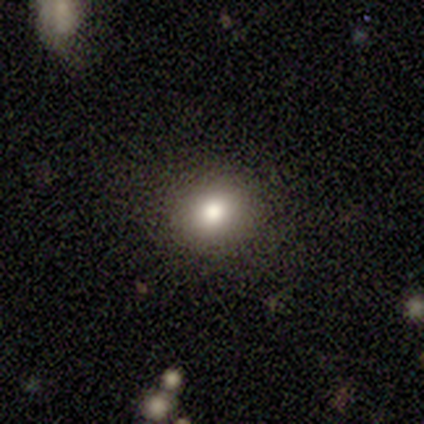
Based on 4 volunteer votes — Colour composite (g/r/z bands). It shows a star or artifact, not a galaxy (75%).